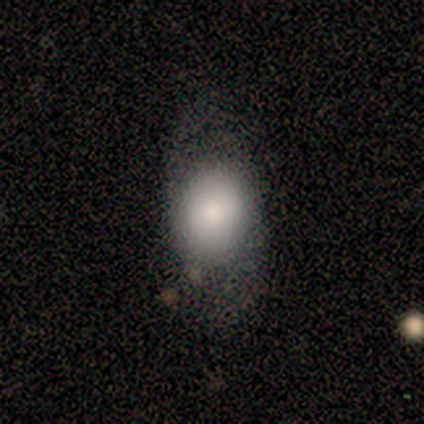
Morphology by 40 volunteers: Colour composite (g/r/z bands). It shows a smooth galaxy with no disk features (70%) that is in between round and cigar-shaped (71%). Merging: none (45%).